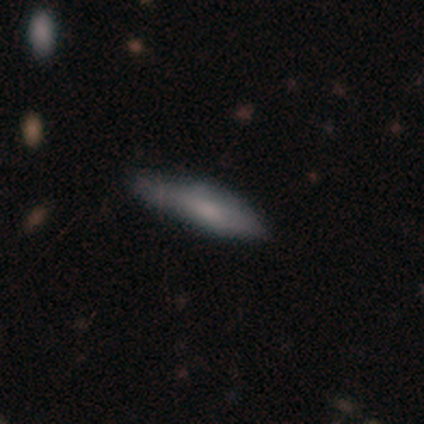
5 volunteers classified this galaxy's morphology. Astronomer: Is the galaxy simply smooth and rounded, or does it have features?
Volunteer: featured or disk — 80%.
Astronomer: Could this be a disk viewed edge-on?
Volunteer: yes — 100%.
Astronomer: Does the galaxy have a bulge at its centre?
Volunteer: boxy — 75%.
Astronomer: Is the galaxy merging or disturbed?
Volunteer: minor disturbance — 80%.